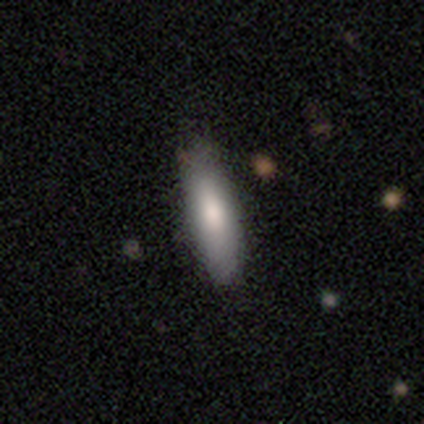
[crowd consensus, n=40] Smooth or featured? smooth (82%)
How rounded? cigar-shaped (55%)
Merging? none (62%)